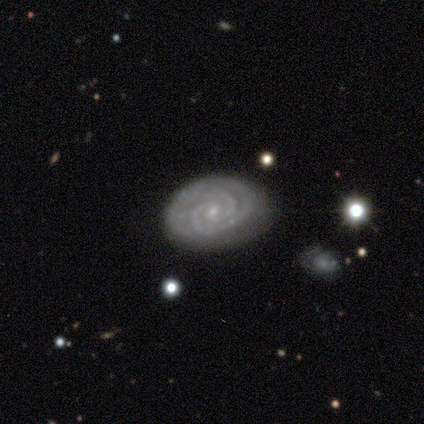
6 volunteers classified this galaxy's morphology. This appears to be a featured or disk galaxy (100%) with no bar (67%), 2 (50%, tied with 3) tight (83%) spiral arms (100%) and a small central bulge (83%). Merging: none (83%).